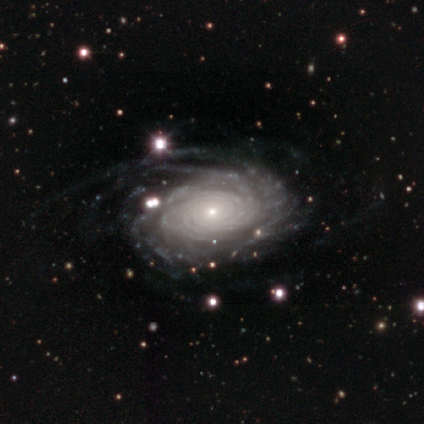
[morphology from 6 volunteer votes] Smooth or featured? featured or disk (83%)
Edge-on disk? no (100%)
Bar? no (100%)
Spiral arms? yes (100%)
Spiral winding? tight (80%)
Spiral arm count? more than 4 (60%)
Bulge size? small (60%)
Merging? none (60%)